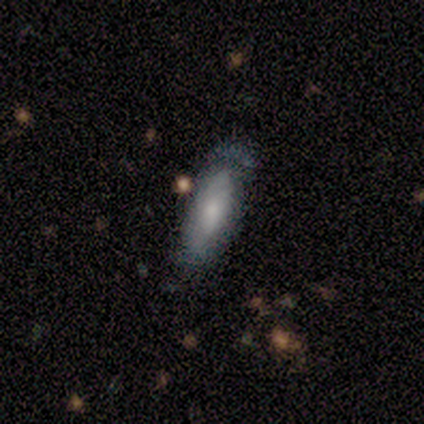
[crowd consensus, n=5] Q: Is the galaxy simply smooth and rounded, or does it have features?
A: featured or disk — 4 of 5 (80%).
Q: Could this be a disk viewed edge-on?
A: no — 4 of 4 (100%).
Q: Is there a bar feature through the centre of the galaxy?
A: no — 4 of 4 (100%).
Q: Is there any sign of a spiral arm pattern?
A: yes — 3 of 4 (75%).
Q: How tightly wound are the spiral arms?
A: tight — 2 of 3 (67%).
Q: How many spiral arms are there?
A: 1 — 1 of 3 (33%, tied with 2 and 3).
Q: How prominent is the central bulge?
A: small — 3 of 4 (75%).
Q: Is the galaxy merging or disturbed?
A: none — 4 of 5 (80%).